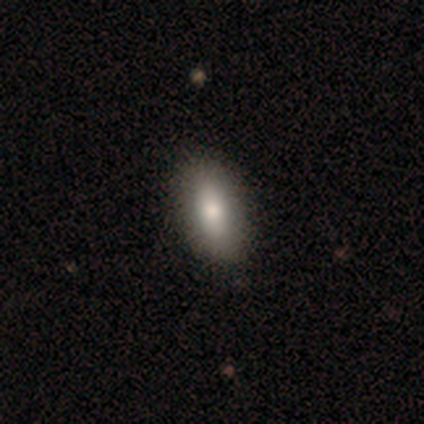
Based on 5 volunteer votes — Smooth or featured? smooth (80%)
How rounded? in between (50%, tied with cigar-shaped)
Merging? none (100%)